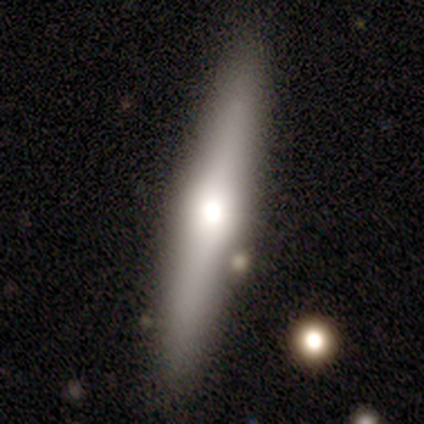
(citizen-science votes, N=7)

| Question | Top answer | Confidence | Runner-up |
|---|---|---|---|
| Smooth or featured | featured or disk | 57% | smooth (43%) |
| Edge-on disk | yes | 100% | — |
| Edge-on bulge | rounded | 75% | none (25%) |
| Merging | none | 86% | minor disturbance (14%) |